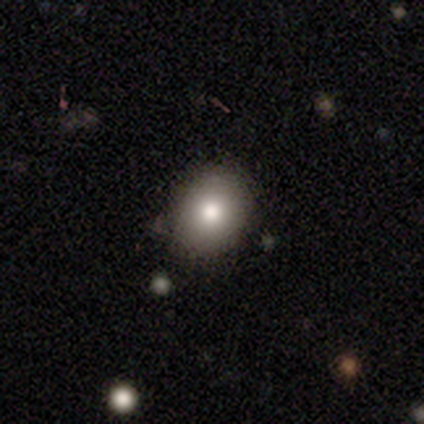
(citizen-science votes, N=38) A smooth galaxy with no disk features (74%) that is round (54%).

Vote fractions:
- Smooth or featured? smooth: 74% / featured or disk: 21% / star or artifact: 5%
- How rounded? round: 54% / in between: 46% / cigar-shaped: 0%
- Merging? none: 92% / minor disturbance: 8% / major disturbance: 0% / merger: 0%